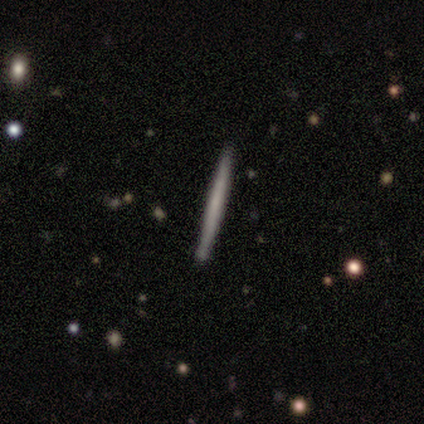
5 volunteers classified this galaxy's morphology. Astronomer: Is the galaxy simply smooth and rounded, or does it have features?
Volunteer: featured or disk — 60% (runner-up: smooth, 40%).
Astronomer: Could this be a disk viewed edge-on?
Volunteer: yes — 100%.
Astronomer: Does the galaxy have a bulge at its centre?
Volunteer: none — 100%.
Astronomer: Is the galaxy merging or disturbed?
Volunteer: none — 100%.